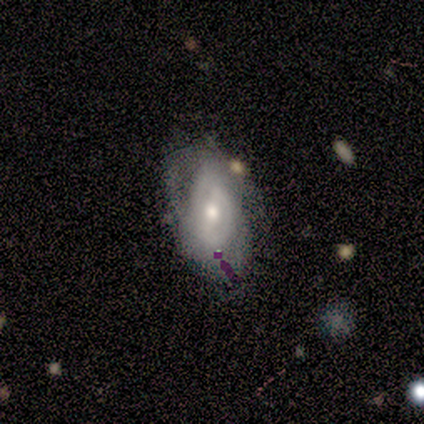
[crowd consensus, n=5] Morphology: type=featured or disk (80%); edge-on=no (100%); bar=no (75%); spiral arms=yes (50%, tied with no); winding=tight (50%, tied with medium); arm count=2 (50%, tied with can't tell); bulge=moderate (75%); merging=none (80%).